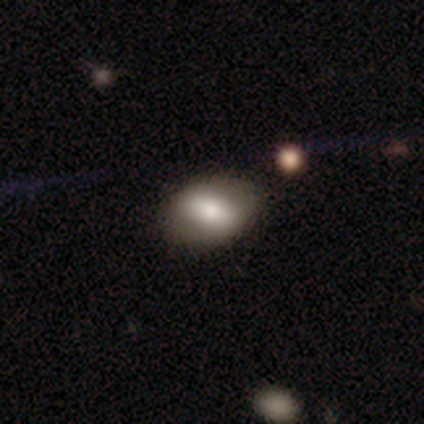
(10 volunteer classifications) smooth-or-featured: smooth: 80% | featured or disk: 20% | star or artifact: 0%
  how-rounded: in between: 100% | round: 0% | cigar-shaped: 0%
  merging: none: 70% | minor disturbance: 20% | major disturbance: 10% | merger: 0%